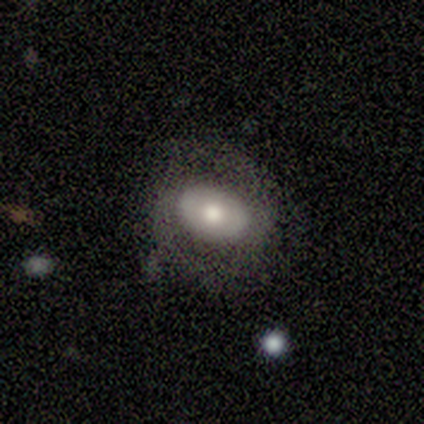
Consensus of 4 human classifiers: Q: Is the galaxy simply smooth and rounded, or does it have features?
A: smooth — 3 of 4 (75%).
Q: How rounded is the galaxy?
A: in between — 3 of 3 (100%).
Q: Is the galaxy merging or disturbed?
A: none — 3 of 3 (100%).